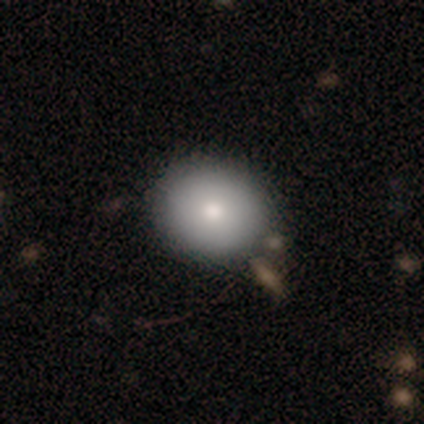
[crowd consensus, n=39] Morphology: type=smooth (79%); roundness=round (87%); merging=none (83%).